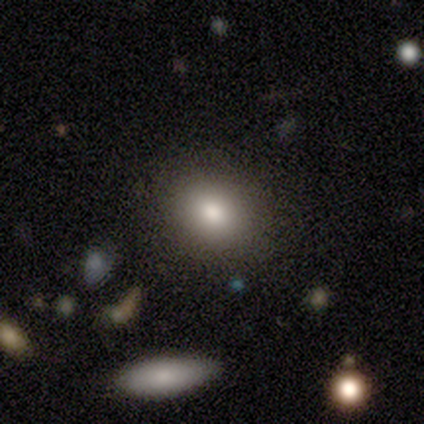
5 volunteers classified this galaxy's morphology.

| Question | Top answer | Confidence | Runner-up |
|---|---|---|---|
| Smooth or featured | smooth | 60% | featured or disk (40%) |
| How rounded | round | 67% | in between (33%) |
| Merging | none | 80% | minor disturbance (20%) |